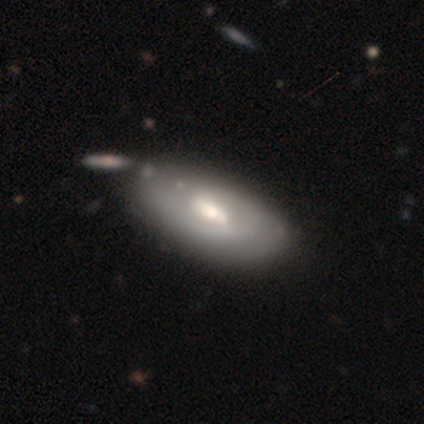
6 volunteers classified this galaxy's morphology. smooth-or-featured: featured or disk: 67% | smooth: 33% | star or artifact: 0%
  disk-edge-on: no: 100% | yes: 0%
    bar: weak: 50% | strong: 25% | no: 25%
    has-spiral-arms: no: 100% | yes: 0%
    bulge-size: moderate: 75% | small: 25% | dominant: 0% | large: 0% | none: 0%
  merging: none: 67% | minor disturbance: 17% | major disturbance: 17% | merger: 0%